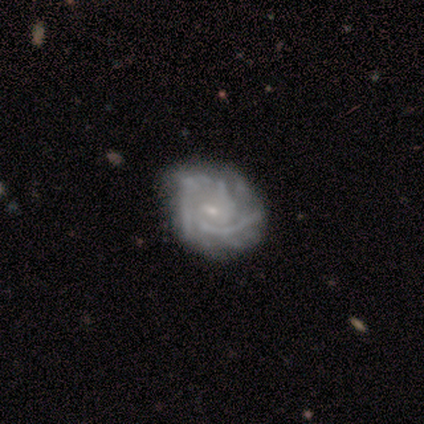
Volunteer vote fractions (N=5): Smooth or featured? featured or disk (100%)
Edge-on disk? no (100%)
Bar? weak (60%)
Spiral arms? yes (100%)
Spiral winding? tight (60%)
Spiral arm count? 3 (60%)
Bulge size? moderate (60%)
Merging? none (60%)